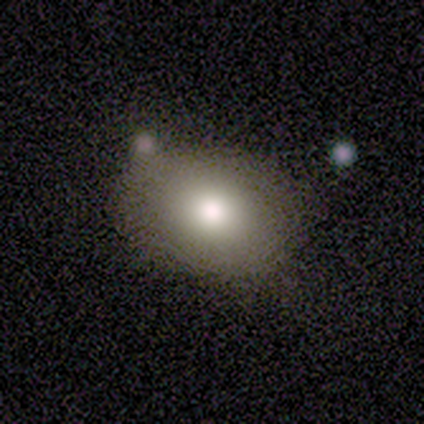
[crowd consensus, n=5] A smooth galaxy with no disk features (80%) that is in between round and cigar-shaped (75%). Merging: none (100%).